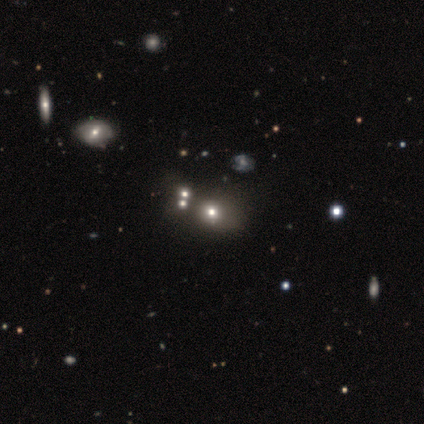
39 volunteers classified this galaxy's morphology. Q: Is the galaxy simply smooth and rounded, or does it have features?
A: smooth — 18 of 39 (46%).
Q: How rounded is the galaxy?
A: round — 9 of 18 (50%, tied with in between).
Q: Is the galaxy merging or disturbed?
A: none — 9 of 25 (36%).